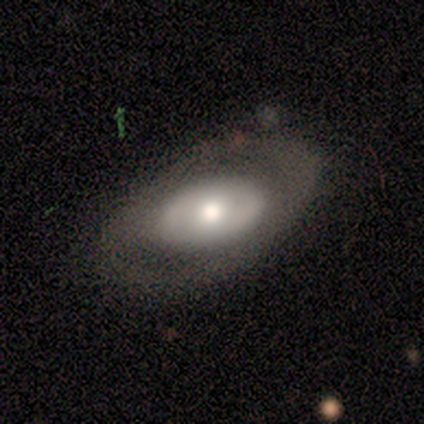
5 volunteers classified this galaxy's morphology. type=smooth (60%); roundness=in between (100%); merging=none (80%).